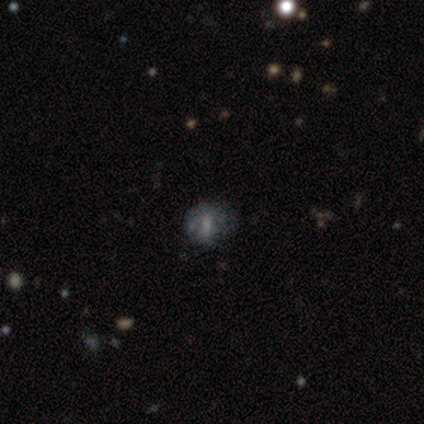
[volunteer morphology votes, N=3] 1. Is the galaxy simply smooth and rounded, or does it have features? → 67% star or artifact, 33% smooth, 0% featured or disk.